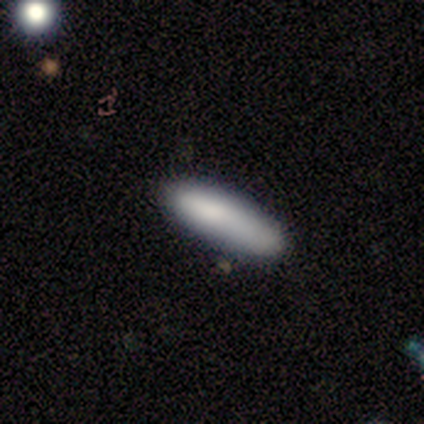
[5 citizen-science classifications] smooth-or-featured: smooth: 80% | featured or disk: 20% | star or artifact: 0%
  how-rounded: cigar-shaped: 100% | round: 0% | in between: 0%
  merging: none: 80% | merger: 20% | minor disturbance: 0% | major disturbance: 0%